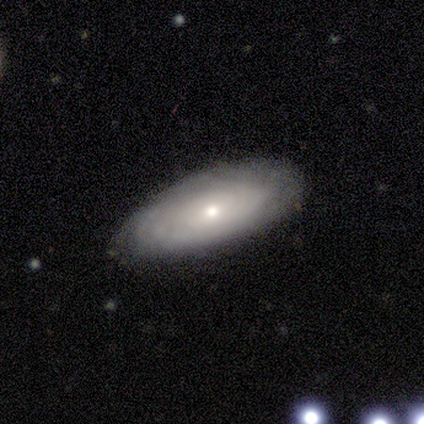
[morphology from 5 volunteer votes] Volunteers were most divided on "smooth or featured": featured or disk: 60%, smooth: 40%, star or artifact: 0%. More confident: edge-on disk — no (100%); bar — no (100%); spiral arms — yes (100%); spiral winding — tight (100%); spiral arm count — can't tell (100%); merging — none (100%); bulge size — moderate (67%).